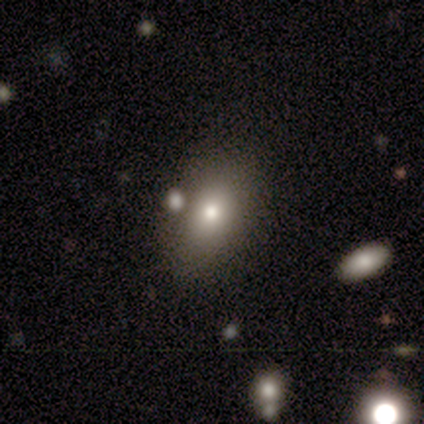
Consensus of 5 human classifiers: A smooth galaxy with no disk features (60%) that is in between round and cigar-shaped (100%).

Vote fractions:
- Smooth or featured? smooth: 60% / star or artifact: 40% / featured or disk: 0%
- How rounded? in between: 100% / round: 0% / cigar-shaped: 0%
- Merging? none: 67% / merger: 33% / minor disturbance: 0% / major disturbance: 0%